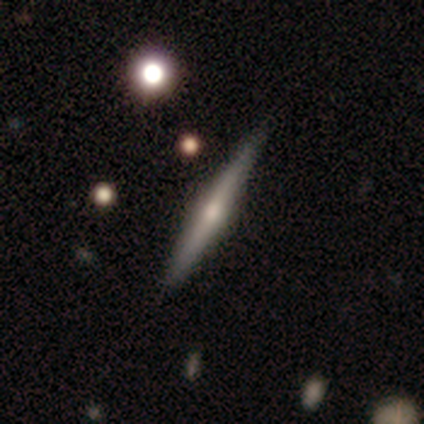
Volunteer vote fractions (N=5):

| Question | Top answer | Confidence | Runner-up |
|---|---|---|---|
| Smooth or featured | featured or disk | 60% | smooth (20%) |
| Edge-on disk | yes | 100% | — |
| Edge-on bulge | rounded | 100% | — |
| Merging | none | 50% | tied: minor disturbance (50%) |